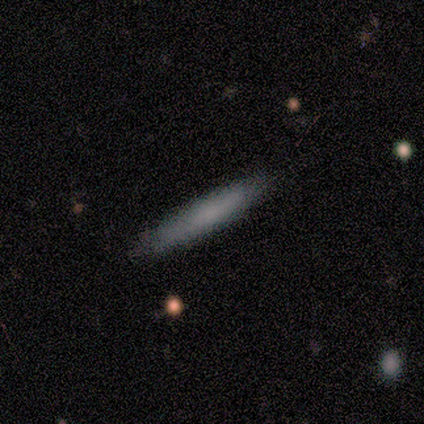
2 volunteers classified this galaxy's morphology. A smooth galaxy with no disk features (100%) that is cigar-shaped (100%).

Vote fractions:
- Smooth or featured? smooth: 100% / featured or disk: 0% / star or artifact: 0%
- How rounded? cigar-shaped: 100% / round: 0% / in between: 0%
- Merging? none: 100% / minor disturbance: 0% / major disturbance: 0% / merger: 0%